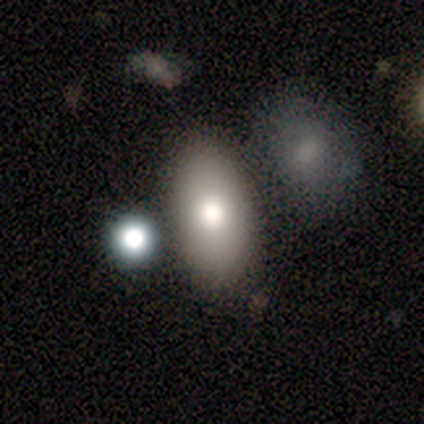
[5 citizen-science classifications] smooth-or-featured: smooth: 100% | featured or disk: 0% | star or artifact: 0%
  how-rounded: in between: 100% | round: 0% | cigar-shaped: 0%
  merging: none: 60% | minor disturbance: 40% | major disturbance: 0% | merger: 0%